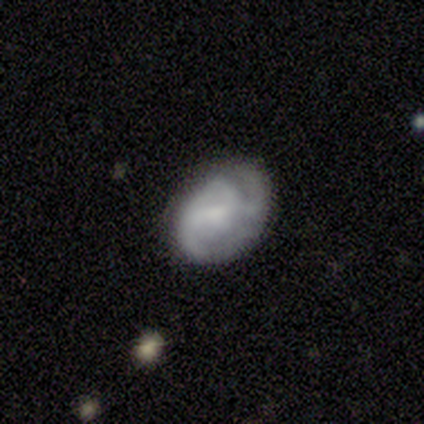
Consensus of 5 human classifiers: smooth_or_featured: featured or disk (p=1.00)
disk_edge_on: no (p=1.00)
bar: weak (p=0.40) [tied with: no p=0.40]
has_spiral_arms: yes (p=0.60) [alt: no p=0.40]
spiral_winding: tight (p=0.67) [alt: loose p=0.33]
spiral_arm_count: 2 (p=0.67) [alt: can't tell p=0.33]
bulge_size: small (p=0.60) [alt: moderate p=0.20]
merging: none (p=0.60) [alt: minor disturbance p=0.40]